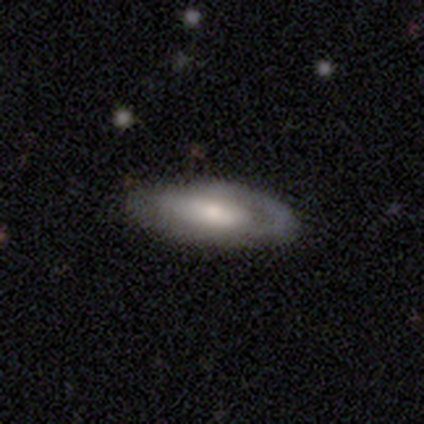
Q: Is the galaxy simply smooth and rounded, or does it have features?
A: smooth — 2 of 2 (100%).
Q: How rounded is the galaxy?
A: in between — 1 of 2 (50%, tied with cigar-shaped).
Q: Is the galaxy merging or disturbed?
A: none — 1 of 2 (50%, tied with minor disturbance).